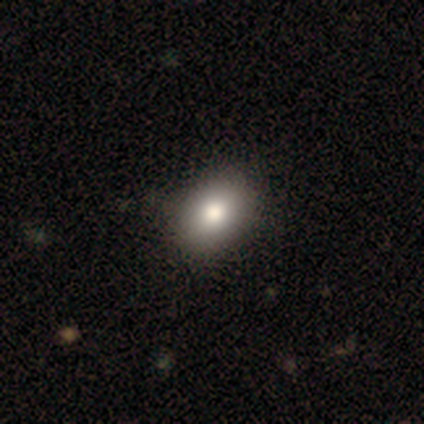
smooth_or_featured: smooth (p=0.85) [alt: featured or disk p=0.10]
how_rounded: in between (p=0.82) [alt: round p=0.18]
merging: none (p=0.66) [alt: minor disturbance p=0.08]